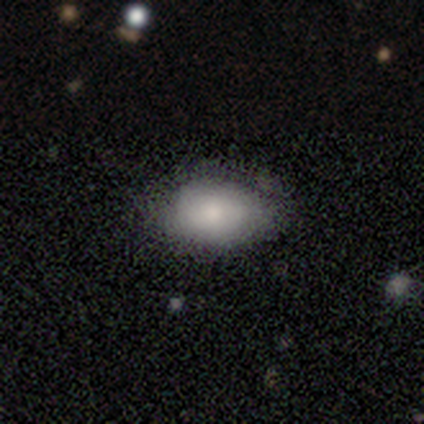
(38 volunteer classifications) Smooth or featured? smooth (79%)
How rounded? in between (87%)
Merging? none (86%)